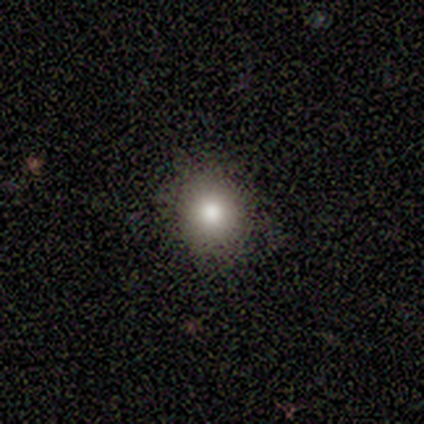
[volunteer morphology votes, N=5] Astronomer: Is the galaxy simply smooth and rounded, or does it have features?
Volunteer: smooth — 60% (runner-up: star or artifact, 40%).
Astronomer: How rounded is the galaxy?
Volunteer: round — 100%.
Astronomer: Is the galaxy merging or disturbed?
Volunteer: none — 100%.